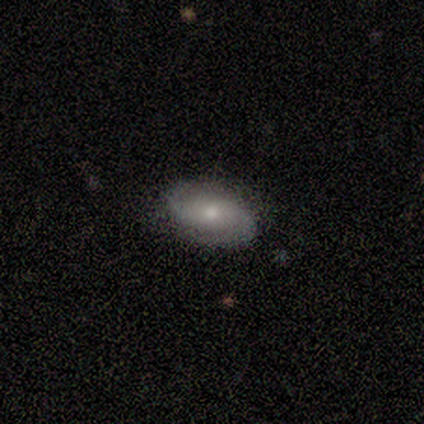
smooth-or-featured: featured or disk: 80% | smooth: 20% | star or artifact: 0%
  disk-edge-on: no: 100% | yes: 0%
    bar: no: 75% | strong: 25% | weak: 0%
    has-spiral-arms: yes: 75% | no: 25%
      spiral-winding: medium: 67% | tight: 33% | loose: 0%
      spiral-arm-count: 2: 67% | can't tell: 33% | 1: 0% | 3: 0% | 4: 0% | more than 4: 0%
    bulge-size: small: 50% | large: 25% | moderate: 25% | dominant: 0% | none: 0%
  merging: none: 80% | minor disturbance: 20% | major disturbance: 0% | merger: 0%